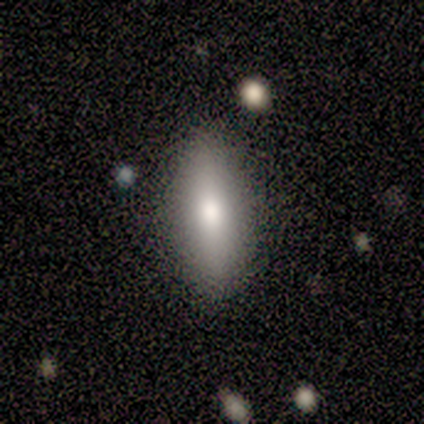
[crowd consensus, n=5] A smooth galaxy with no disk features (80%) that is in between round and cigar-shaped (75%). Merging: none (75%).